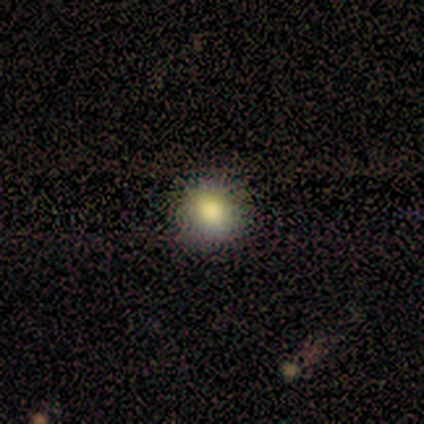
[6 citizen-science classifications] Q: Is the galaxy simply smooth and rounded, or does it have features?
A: smooth — 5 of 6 (83%).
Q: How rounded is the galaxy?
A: round — 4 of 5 (80%).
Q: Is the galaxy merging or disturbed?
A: none — 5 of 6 (83%).